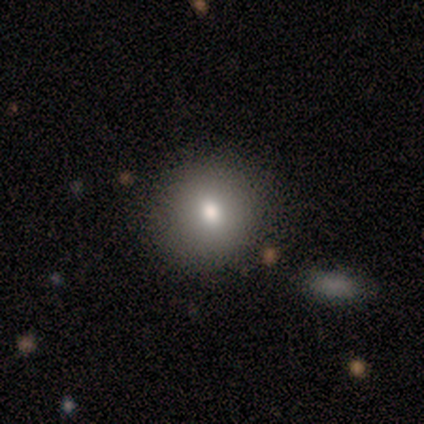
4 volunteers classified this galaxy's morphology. This is likely a smooth galaxy (75%). How rounded: likely round (67%). Merging: possibly none (50%, tied with minor disturbance).